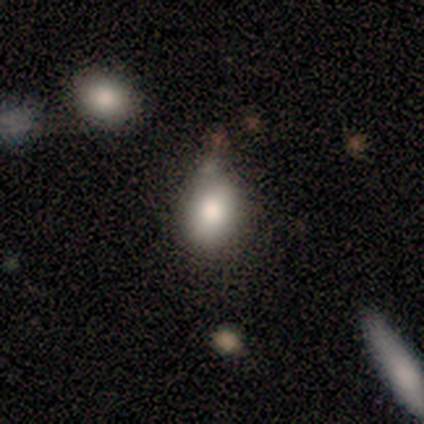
smooth-or-featured: smooth: 83% | star or artifact: 17% | featured or disk: 0%
  how-rounded: in between: 80% | round: 20% | cigar-shaped: 0%
  merging: minor disturbance: 80% | none: 20% | major disturbance: 0% | merger: 0%